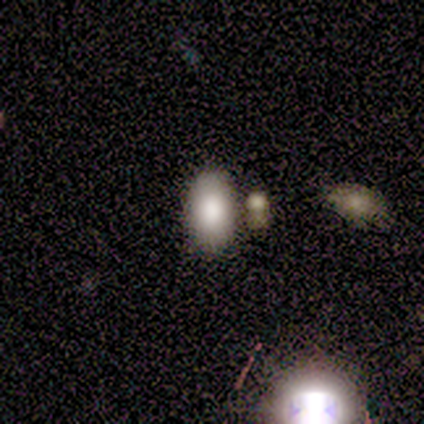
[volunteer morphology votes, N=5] smooth_or_featured: smooth (p=1.00)
how_rounded: in between (p=1.00)
merging: none (p=0.80) [alt: merger p=0.20]